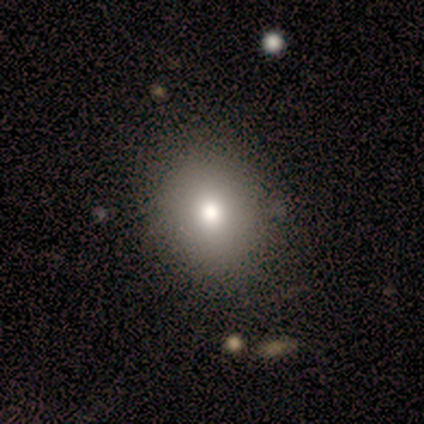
smooth 75%, featured or disk 25%, star or artifact 0%. Down the decision tree: how rounded — in between (67%); merging — none (100%).